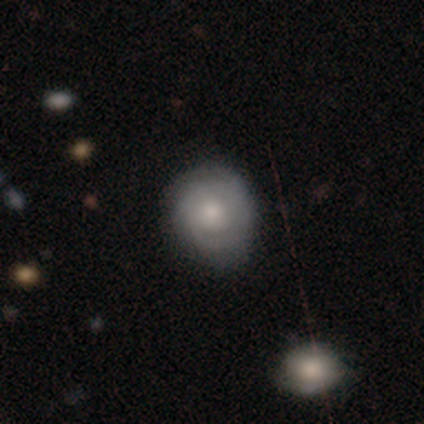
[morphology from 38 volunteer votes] Overall: featured or disk (53%; smooth 39%). Edge-on disk: no (90%). Bar: no (72%). Spiral arms: yes (61%; no 39%). Spiral arm count: can't tell (55%; 2 27%). Spiral winding: tight (64%). Bulge size: moderate (44%; small 33%). Merging: none (77%).